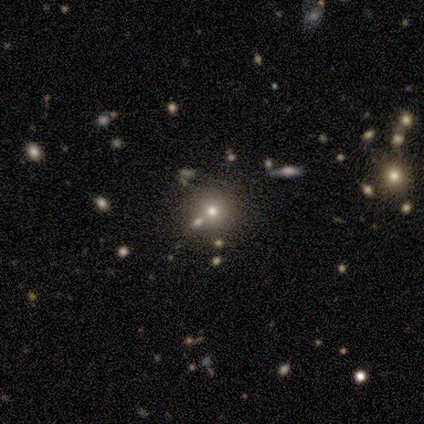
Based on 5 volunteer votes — Smooth or featured? 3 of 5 (60%) said smooth. How rounded? 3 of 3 (100%) said round. Merging? 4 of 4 (100%) said none.